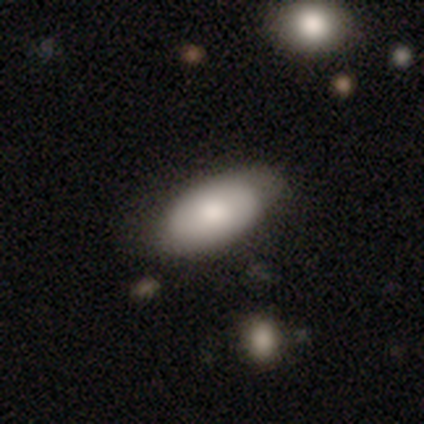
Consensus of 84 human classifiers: This is clearly a smooth galaxy (83%). How rounded: clearly in between (94%). Merging: possibly none (59%).